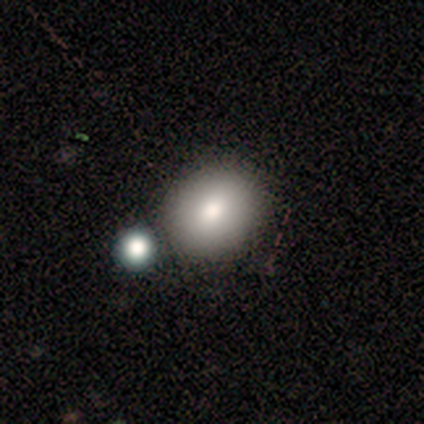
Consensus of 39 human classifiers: smooth-or-featured: smooth: 90% | featured or disk: 5% | star or artifact: 5%
  how-rounded: round: 71% | in between: 29% | cigar-shaped: 0%
  merging: none: 68% | merger: 19% | minor disturbance: 8% | major disturbance: 5%